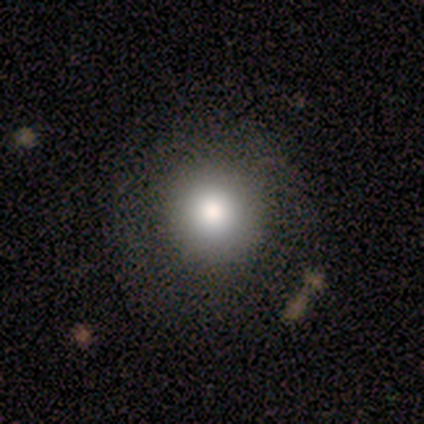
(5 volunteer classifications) A smooth galaxy with no disk features (100%) that is round (100%).

Vote fractions:
- Smooth or featured? smooth: 100% / featured or disk: 0% / star or artifact: 0%
- How rounded? round: 100% / in between: 0% / cigar-shaped: 0%
- Merging? none: 80% / minor disturbance: 20% / major disturbance: 0% / merger: 0%